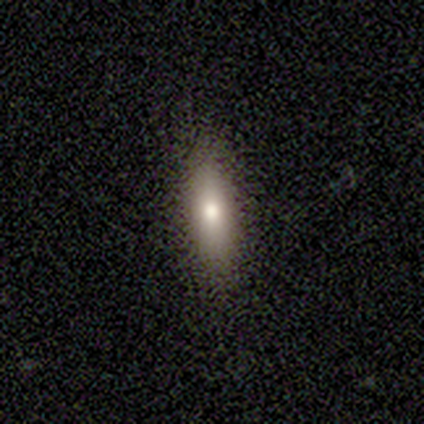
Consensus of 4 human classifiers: Smooth or featured? smooth (75%)
How rounded? in between (67%)
Merging? none (100%)